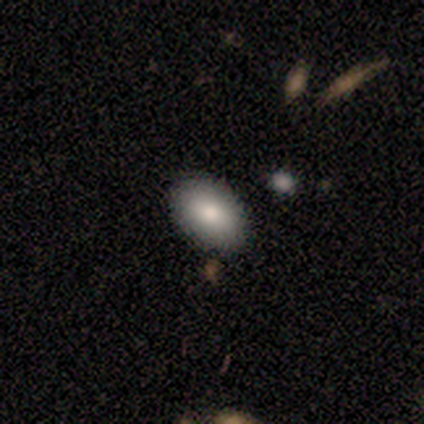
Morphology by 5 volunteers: Consensus on every question: smooth or featured — smooth (100%); how rounded — in between (100%); merging — none (100%).